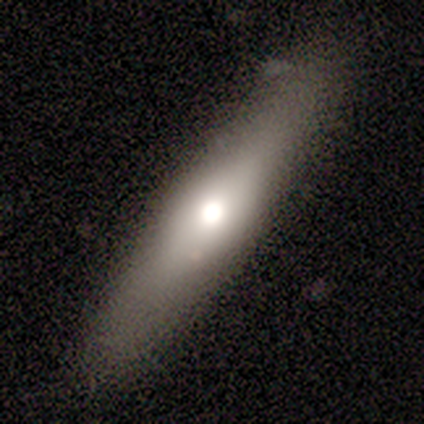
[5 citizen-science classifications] This appears to be a smooth galaxy with no disk features (80%) that is cigar-shaped (100%). Merging: none (80%).